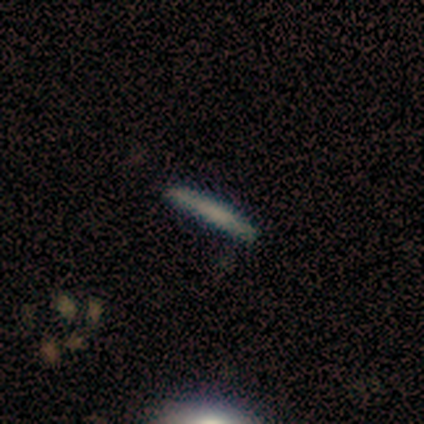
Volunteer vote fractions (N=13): This appears to be a smooth galaxy with no disk features (69%) that is cigar-shaped (100%). Merging: none (85%).